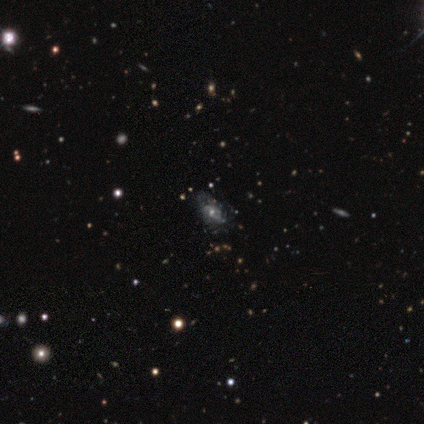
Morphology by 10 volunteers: Smooth or featured? 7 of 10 (70%) said featured or disk. Edge-on disk? 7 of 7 (100%) said no. Bar? 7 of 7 (100%) said no. Spiral arms? 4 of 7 (57%) said yes. Spiral winding? 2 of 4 (50%) said loose. Spiral arm count? 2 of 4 (50%) said can't tell. Bulge size? 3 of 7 (43%, tied with small) said moderate. Merging? 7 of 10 (70%) said none.